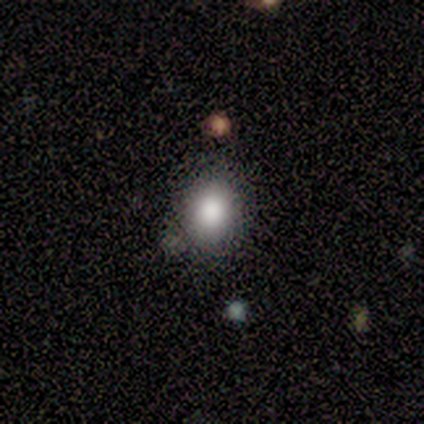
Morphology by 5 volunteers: This appears to be a smooth galaxy with no disk features (80%) that is in between round and cigar-shaped (75%). Merging: none (100%).